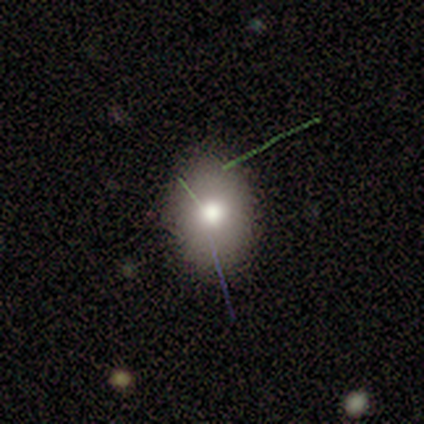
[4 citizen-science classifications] smooth 100%, featured or disk 0%, star or artifact 0%. Down the decision tree: how rounded — in between (100%); merging — none (100%).